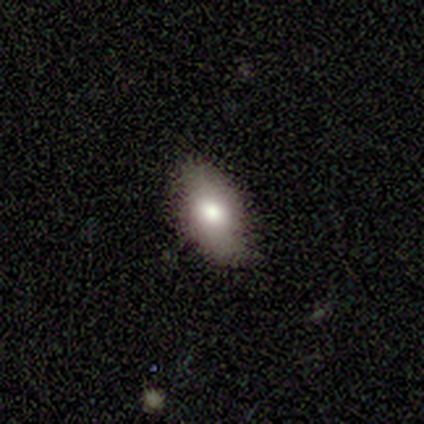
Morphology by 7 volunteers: Overall: smooth (86%). How rounded: in between (100%). Merging: none (100%).